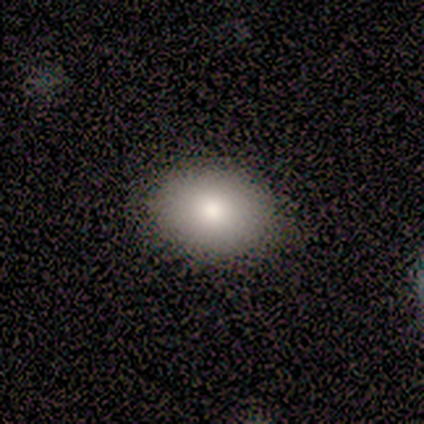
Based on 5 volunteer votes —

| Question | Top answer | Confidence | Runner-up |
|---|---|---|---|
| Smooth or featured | smooth | 80% | featured or disk (20%) |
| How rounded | in between | 100% | — |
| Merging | none | 100% | — |